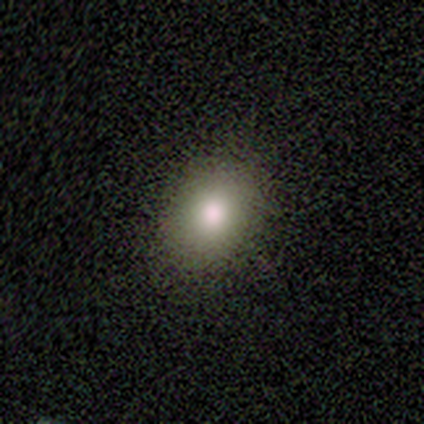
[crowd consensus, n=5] This is clearly a smooth galaxy (80%). How rounded: possibly round (50%, tied with in between). Merging: clearly none (100%).